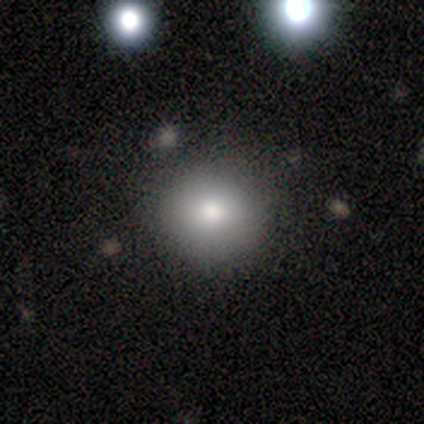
A smooth galaxy with no disk features (100%) that is round (100%). Merging: none (100%).